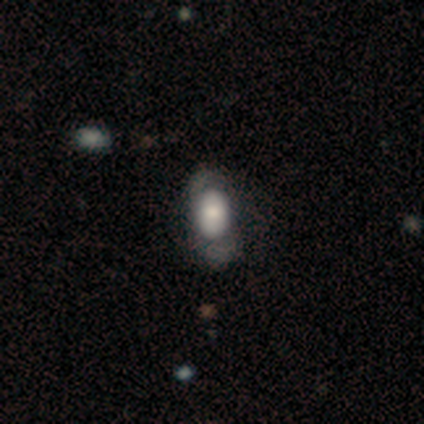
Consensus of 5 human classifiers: Overall: smooth (80%). How rounded: in between (75%). Merging: none (60%; minor disturbance 40%).